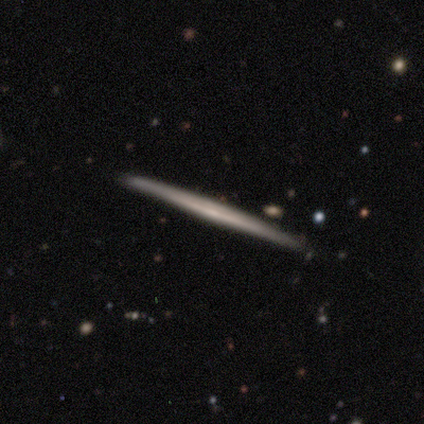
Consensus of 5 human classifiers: Smooth or featured? featured or disk (80%)
Edge-on disk? yes (100%)
Edge-on bulge? none (75%)
Merging? none (100%)